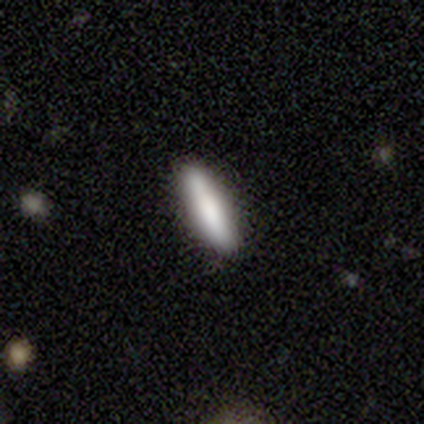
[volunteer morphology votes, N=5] This appears to be a smooth galaxy with no disk features (100%) that is cigar-shaped (100%). Merging: none (100%).